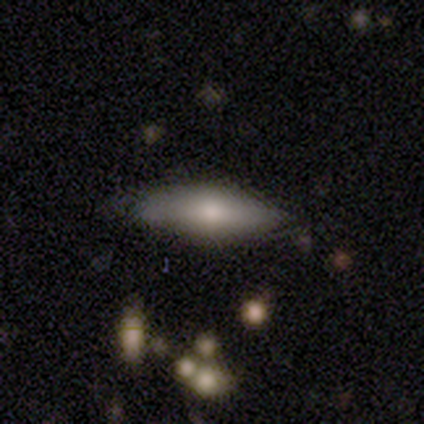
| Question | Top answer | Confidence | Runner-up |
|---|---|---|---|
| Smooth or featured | smooth | 100% | — |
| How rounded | cigar-shaped | 75% | in between (25%) |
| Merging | none | 50% | minor disturbance (25%) |